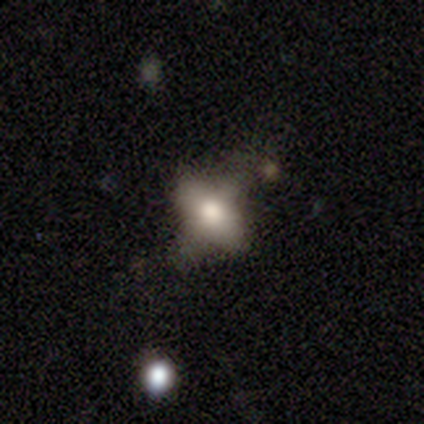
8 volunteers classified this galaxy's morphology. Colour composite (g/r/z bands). It shows a smooth galaxy with no disk features (75%) that is in between round and cigar-shaped (83%). Merging: none (43%, tied with minor disturbance).